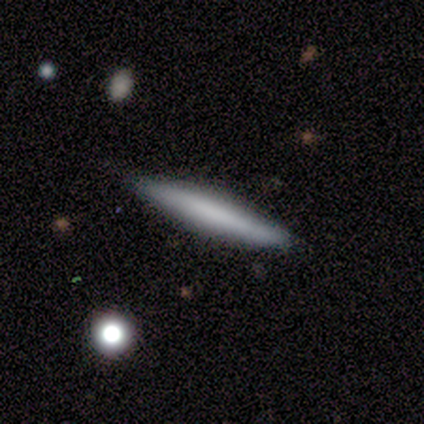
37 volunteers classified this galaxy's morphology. Q: Smooth or featured?
A: smooth (62%); runner-up: featured or disk (30%)
Q: How rounded?
A: cigar-shaped (96%); runner-up: in between (4%)
Q: Merging?
A: none (91%); runner-up: minor disturbance (9%)